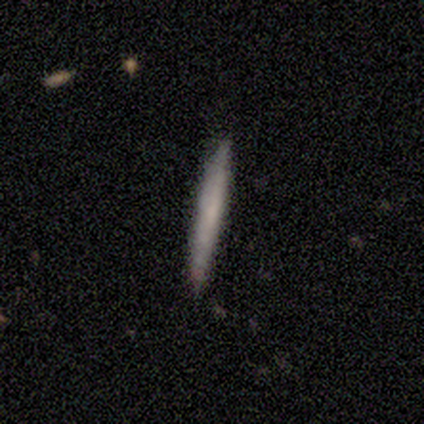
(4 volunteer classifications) Smooth or featured?
  - smooth: 75% *
  - featured or disk: 25%
  - star or artifact: 0%
How rounded?
  - cigar-shaped: 100% *
  - round: 0%
  - in between: 0%
Merging?
  - none: 100% *
  - minor disturbance: 0%
  - major disturbance: 0%
  - merger: 0%